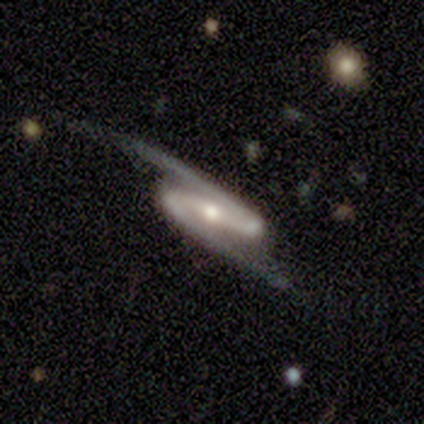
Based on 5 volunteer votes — smooth-or-featured: featured or disk: 80% | star or artifact: 20% | smooth: 0%
  disk-edge-on: no: 100% | yes: 0%
    bar: strong: 75% | weak: 25% | no: 0%
    has-spiral-arms: yes: 100% | no: 0%
      spiral-winding: loose: 75% | tight: 25% | medium: 0%
      spiral-arm-count: 2: 100% | 1: 0% | 3: 0% | 4: 0% | more than 4: 0% | can't tell: 0%
    bulge-size: moderate: 50% | dominant: 25% | small: 25% | large: 0% | none: 0%
  merging: none: 100% | minor disturbance: 0% | major disturbance: 0% | merger: 0%